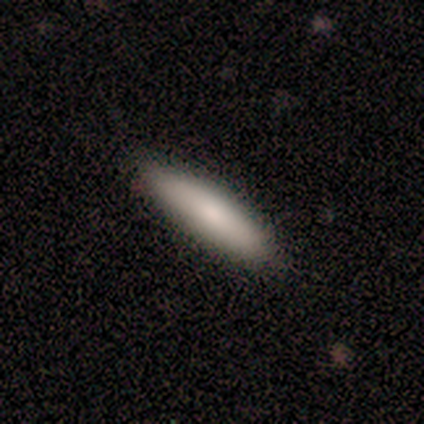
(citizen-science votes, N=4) smooth_or_featured: smooth (p=1.00)
how_rounded: cigar-shaped (p=0.75) [alt: in between p=0.25]
merging: none (p=1.00)